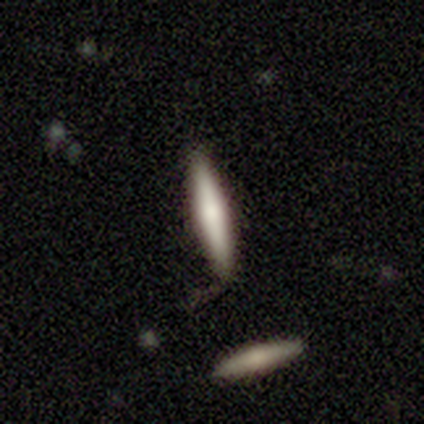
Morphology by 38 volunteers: Smooth or featured? smooth (66%)
How rounded? cigar-shaped (100%)
Merging? none (87%)